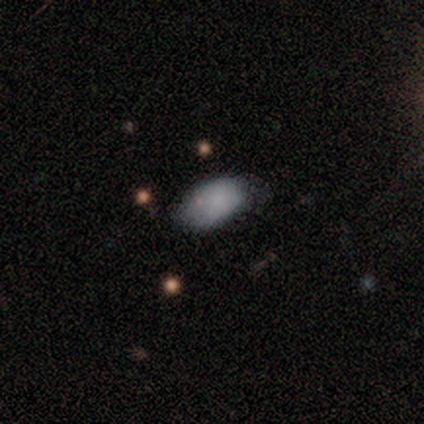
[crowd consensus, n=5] Overall: smooth (80%). How rounded: in between (100%). Merging: minor disturbance (80%).